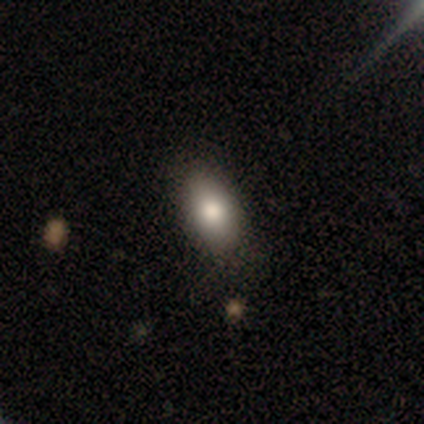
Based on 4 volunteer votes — Smooth or featured: smooth — 75% (featured or disk — 25%)
How rounded: in between — 100%
Merging: none — 100%